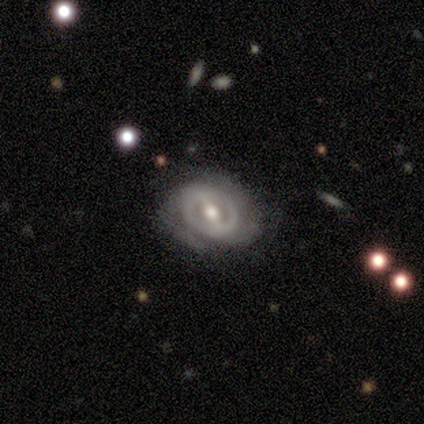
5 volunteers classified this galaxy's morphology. featured or disk 80%, smooth 20%, star or artifact 0%. Down the decision tree: edge-on disk — no (100%); bar — no (50%); spiral arms — no (75%); bulge size — moderate (75%); merging — none (100%).